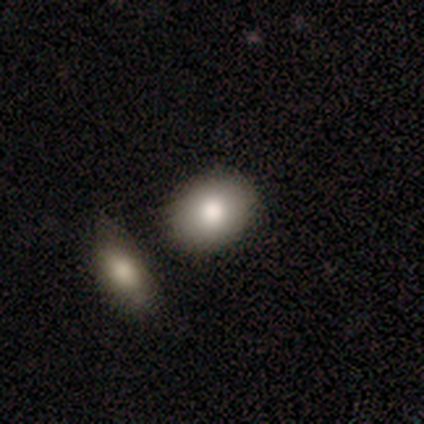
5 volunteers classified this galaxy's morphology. Volunteers were most divided on "how rounded": round: 80%, in between: 20%, cigar-shaped: 0%. More confident: smooth or featured — smooth (100%); merging — none (100%).